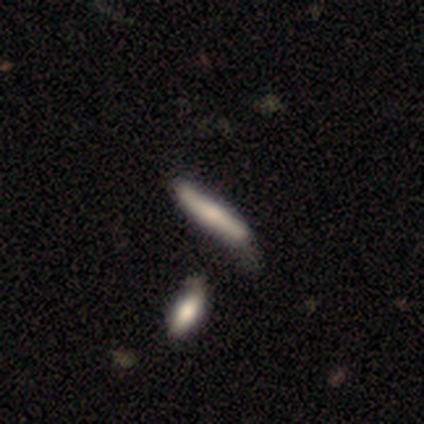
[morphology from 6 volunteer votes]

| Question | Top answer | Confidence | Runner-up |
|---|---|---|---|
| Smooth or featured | smooth | 83% | star or artifact (17%) |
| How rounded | cigar-shaped | 100% | — |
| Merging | none | 60% | minor disturbance (20%) |